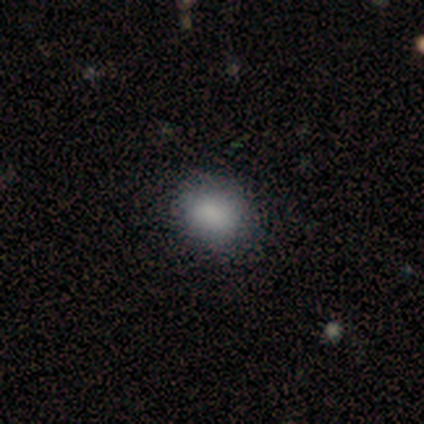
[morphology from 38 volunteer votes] Smooth or featured? 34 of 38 (89%) said smooth. How rounded? 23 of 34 (68%) said round. Merging? 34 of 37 (92%) said none.